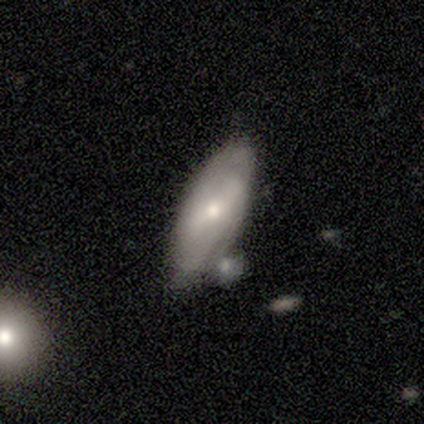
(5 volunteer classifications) This appears to be a featured or disk galaxy (60%) with a strong bar (33%, tied with weak and no), no spiral arms (67%) and a moderate central bulge (67%). Merging: none (40%, tied with minor disturbance).